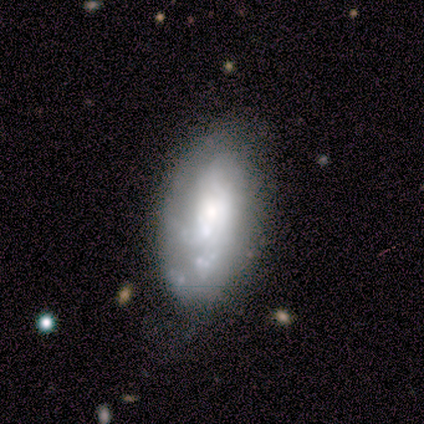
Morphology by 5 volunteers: A featured or disk galaxy (60%) with no bar (100%), medium (50%, tied with loose) spiral arms (67%) and a dominant central bulge (33%, tied with large and moderate). Merging: none (33%, tied with major disturbance and merger).